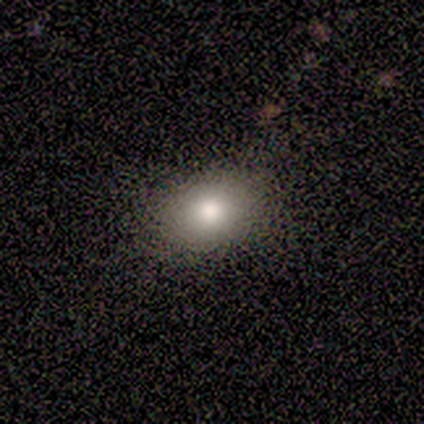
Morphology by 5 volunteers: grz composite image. It shows a featured or disk galaxy (40%, tied with star or artifact) with no bar (100%), no spiral arms (100%) and a moderate central bulge (100%). Merging: none (100%).